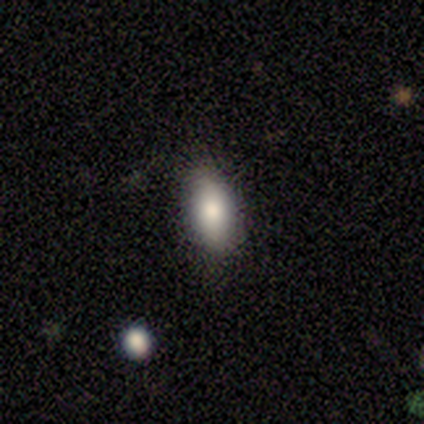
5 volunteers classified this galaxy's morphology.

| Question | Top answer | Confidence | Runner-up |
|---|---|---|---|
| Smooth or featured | smooth | 100% | — |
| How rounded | in between | 100% | — |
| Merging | none | 100% | — |